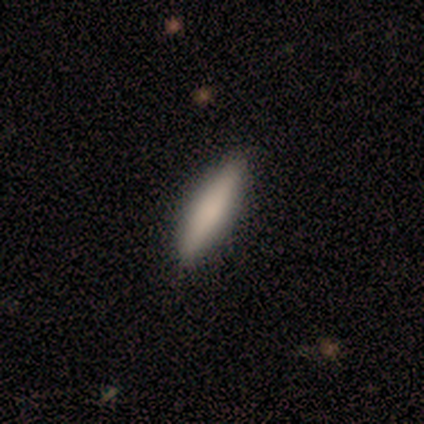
A smooth galaxy with no disk features (100%) that is cigar-shaped (70%). Merging: none (100%).